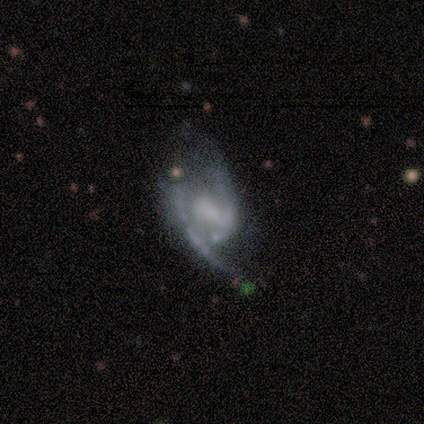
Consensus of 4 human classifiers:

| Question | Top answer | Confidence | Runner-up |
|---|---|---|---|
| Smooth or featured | featured or disk | 100% | — |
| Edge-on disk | no | 100% | — |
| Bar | no | 50% | strong (25%) |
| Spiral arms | yes | 100% | — |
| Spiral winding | loose | 50% | tight (25%) |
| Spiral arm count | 2 | 100% | — |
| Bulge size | none | 50% | moderate (25%) |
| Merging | minor disturbance | 50% | none (25%) |